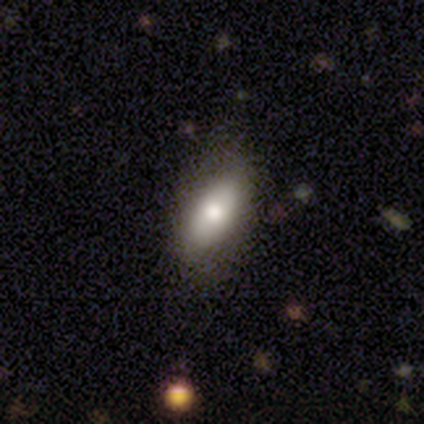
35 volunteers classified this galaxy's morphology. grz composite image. It shows a smooth galaxy with no disk features (77%) that is in between round and cigar-shaped (96%). Merging: none (88%).